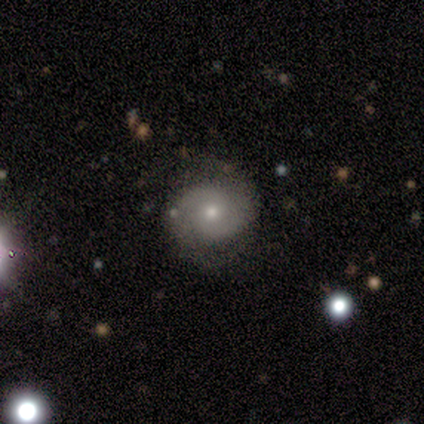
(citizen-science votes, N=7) Morphology: type=featured or disk (86%); edge-on=no (100%); bar=no (83%); spiral arms=yes (100%); winding=tight (50%); arm count=2 (83%); bulge=moderate (67%); merging=none (83%).